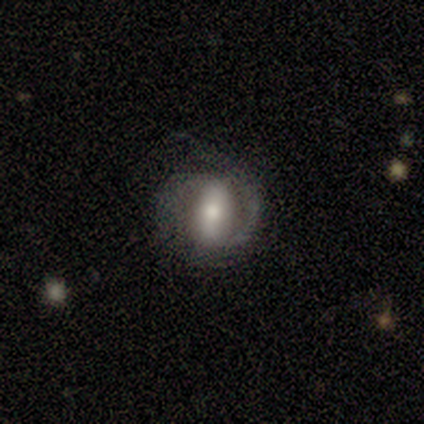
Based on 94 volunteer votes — Overall: featured or disk (67%). Edge-on disk: no (98%). Bar: strong (58%; weak 26%). Spiral arms: yes (85%). Spiral arm count: 2 (68%). Spiral winding: medium (42%; tight 40%). Bulge size: moderate (55%; small 29%). Merging: none (63%).